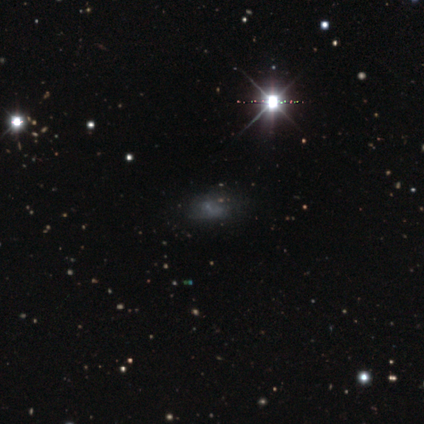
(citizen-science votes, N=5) Smooth or featured? 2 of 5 (40%, tied with featured or disk) said smooth. How rounded? 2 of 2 (100%) said in between. Merging? 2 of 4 (50%) said none.